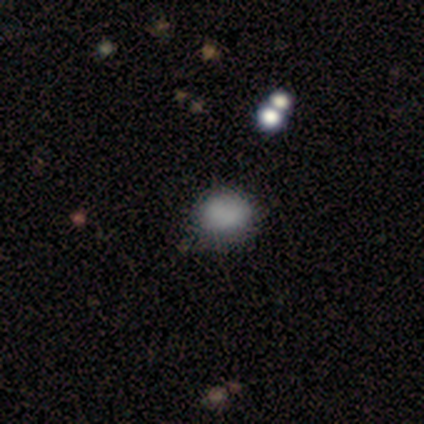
Smooth or featured?
  - smooth: 80% *
  - featured or disk: 20%
  - star or artifact: 0%
How rounded?
  - round: 75% *
  - in between: 25%
  - cigar-shaped: 0%
Merging?
  - none: 100% *
  - minor disturbance: 0%
  - major disturbance: 0%
  - merger: 0%